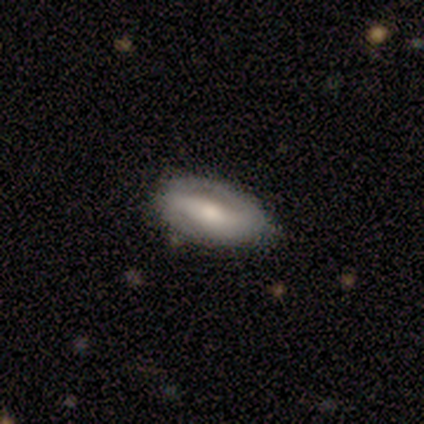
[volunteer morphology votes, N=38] Q: Smooth or featured?
A: featured or disk (71%); runner-up: smooth (18%)
Q: Edge-on disk?
A: no (96%); runner-up: yes (4%)
Q: Bar?
A: strong (54%); runner-up: weak (31%)
Q: Spiral arms?
A: yes (58%); runner-up: no (42%)
Q: Spiral winding?
A: tight (33%); tied with: medium (33%); loose (33%)
Q: Spiral arm count?
A: 2 (93%); runner-up: can't tell (7%)
Q: Bulge size?
A: moderate (65%); runner-up: small (23%)
Q: Merging?
A: none (76%); runner-up: minor disturbance (24%)